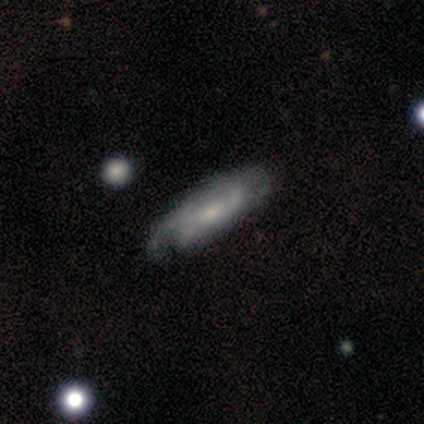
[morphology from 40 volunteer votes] This is likely a featured or disk galaxy (78%). It is clearly not viewed edge-on (87%). Bar: likely no (67%). Spiral arm pattern: clearly yes (93%). Spiral arm count: possibly can't tell (56%). Spiral winding: marginally medium (40%). Central bulge: possibly small (48%). Merging: marginally none (34%).